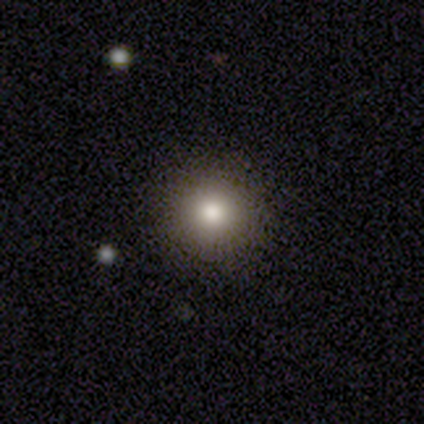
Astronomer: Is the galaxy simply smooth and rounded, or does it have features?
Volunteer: smooth — 70%.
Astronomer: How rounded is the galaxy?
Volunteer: round — 100%.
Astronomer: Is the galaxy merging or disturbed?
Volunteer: none — 85%.